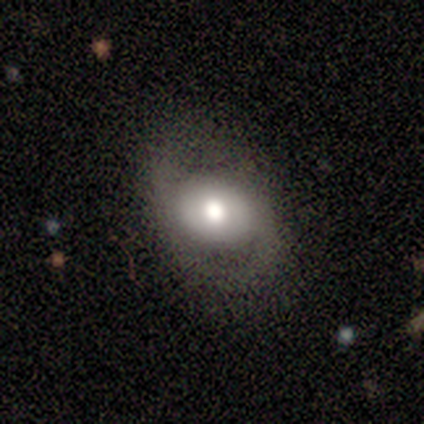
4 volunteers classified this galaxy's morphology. Q: Smooth or featured?
A: featured or disk (100%)
Q: Edge-on disk?
A: no (100%)
Q: Bar?
A: no (75%); runner-up: strong (25%)
Q: Spiral arms?
A: yes (75%); runner-up: no (25%)
Q: Spiral winding?
A: loose (67%); runner-up: medium (33%)
Q: Spiral arm count?
A: 2 (100%)
Q: Bulge size?
A: large (50%); tied with: moderate (50%)
Q: Merging?
A: none (75%); runner-up: minor disturbance (25%)